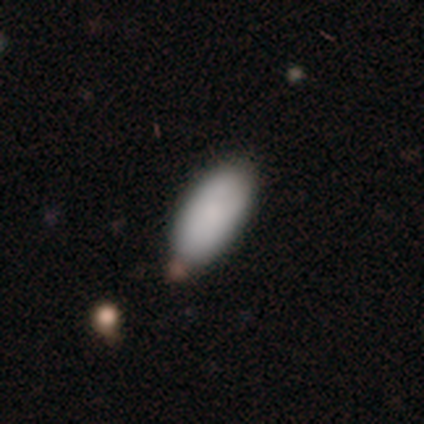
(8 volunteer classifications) smooth-or-featured: smooth: 62% | featured or disk: 25% | star or artifact: 12%
  how-rounded: in between: 100% | round: 0% | cigar-shaped: 0%
  merging: none: 71% | minor disturbance: 29% | major disturbance: 0% | merger: 0%